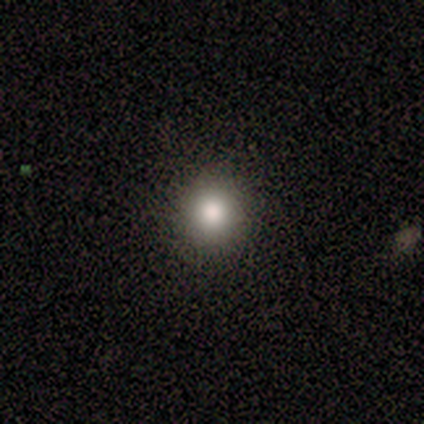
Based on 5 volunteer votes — This is likely a smooth galaxy (60%). How rounded: clearly round (100%). Merging: clearly none (100%).